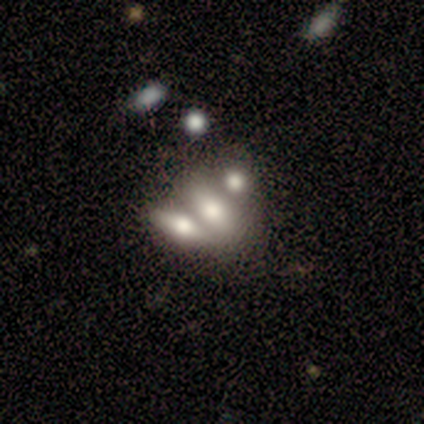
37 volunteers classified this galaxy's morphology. Q: Smooth or featured?
A: featured or disk (51%); runner-up: smooth (43%)
Q: Edge-on disk?
A: no (63%); runner-up: yes (37%)
Q: Bar?
A: no (67%); runner-up: weak (25%)
Q: Spiral arms?
A: no (92%); runner-up: yes (8%)
Q: Bulge size?
A: large (42%); runner-up: moderate (33%)
Q: Merging?
A: merger (74%); runner-up: none (20%)